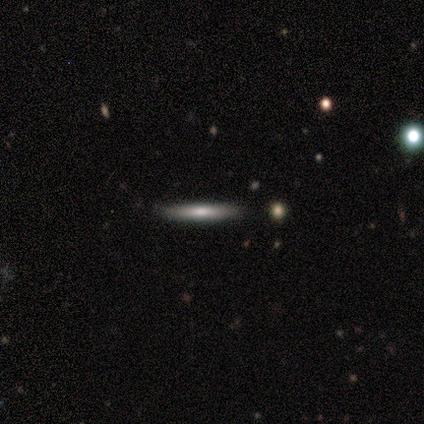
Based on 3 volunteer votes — A smooth galaxy with no disk features (67%) that is cigar-shaped (100%).

Vote fractions:
- Smooth or featured? smooth: 67% / featured or disk: 33% / star or artifact: 0%
- How rounded? cigar-shaped: 100% / round: 0% / in between: 0%
- Merging? none: 100% / minor disturbance: 0% / major disturbance: 0% / merger: 0%